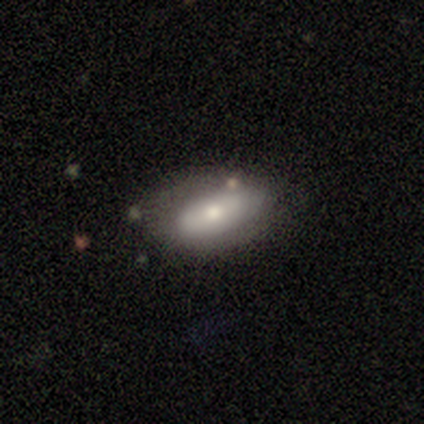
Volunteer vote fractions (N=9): smooth_or_featured: smooth (p=0.56) [alt: featured or disk p=0.44]
how_rounded: in between (p=0.60) [alt: cigar-shaped p=0.40]
merging: none (p=0.67) [alt: minor disturbance p=0.33]